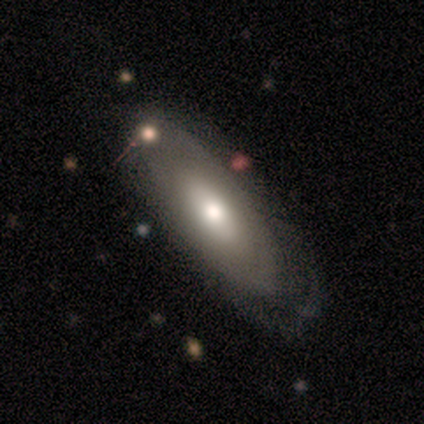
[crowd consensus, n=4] This is possibly a smooth galaxy (50%, tied with featured or disk). How rounded: clearly in between (100%). Merging: likely none (75%).